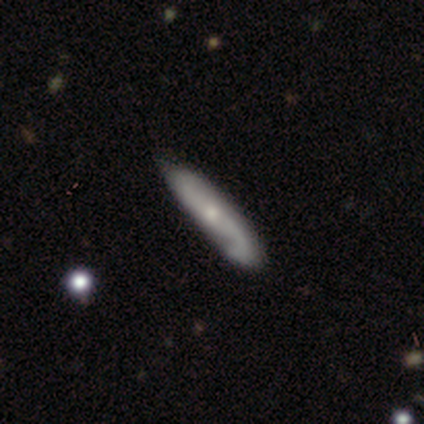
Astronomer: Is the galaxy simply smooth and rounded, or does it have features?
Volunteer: featured or disk — 57% (runner-up: smooth, 36%).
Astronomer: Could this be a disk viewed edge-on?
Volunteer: no — 53% (runner-up: yes, 47%).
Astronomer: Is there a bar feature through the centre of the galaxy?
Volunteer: no — 46% (runner-up: weak, 31%).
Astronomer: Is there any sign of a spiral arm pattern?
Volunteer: yes — 92%.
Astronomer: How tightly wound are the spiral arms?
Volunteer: loose — 46% (runner-up: medium, 33%).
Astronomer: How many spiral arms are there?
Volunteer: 2 — 92%.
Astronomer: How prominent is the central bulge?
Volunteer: small — 62% (runner-up: moderate, 38%).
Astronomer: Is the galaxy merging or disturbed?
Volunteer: none — 72%.